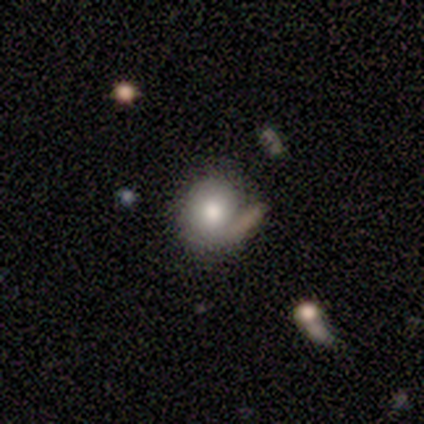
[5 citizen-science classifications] Q: Smooth or featured?
A: smooth (60%); runner-up: featured or disk (40%)
Q: How rounded?
A: round (100%)
Q: Merging?
A: major disturbance (40%); runner-up: none (20%)